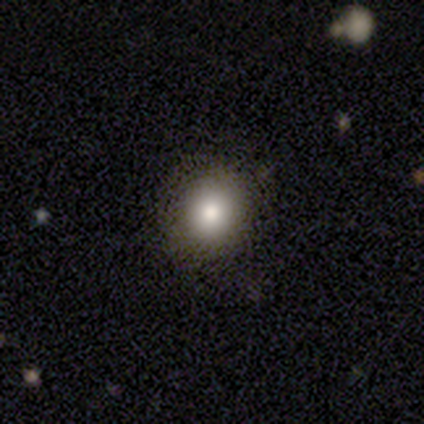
A smooth galaxy with no disk features (80%) that is round (50%, tied with in between).

Vote fractions:
- Smooth or featured? smooth: 80% / featured or disk: 20% / star or artifact: 0%
- How rounded? round: 50% (tied) / in between: 50% (tied) / cigar-shaped: 0%
- Merging? none: 80% / minor disturbance: 20% / major disturbance: 0% / merger: 0%